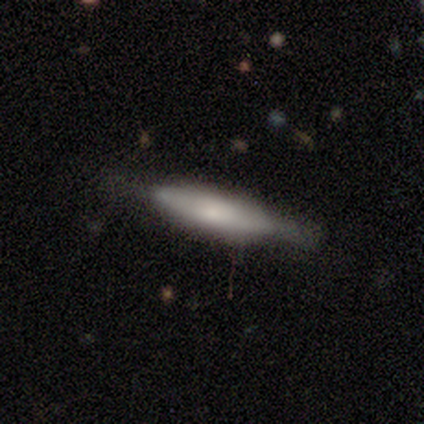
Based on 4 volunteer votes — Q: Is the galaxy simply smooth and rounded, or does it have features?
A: featured or disk — 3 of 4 (75%).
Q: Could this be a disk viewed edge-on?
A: yes — 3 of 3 (100%).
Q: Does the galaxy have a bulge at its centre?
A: rounded — 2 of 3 (67%).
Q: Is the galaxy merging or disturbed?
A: none — 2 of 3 (67%).